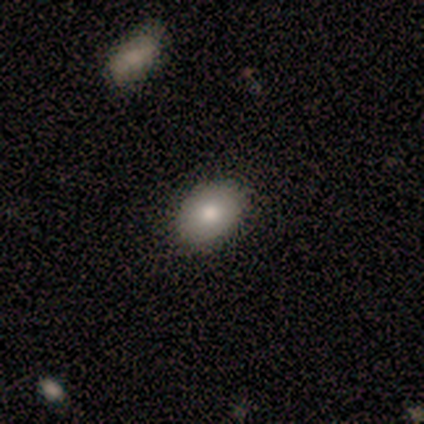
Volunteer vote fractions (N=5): smooth-or-featured: smooth: 80% | featured or disk: 20% | star or artifact: 0%
  how-rounded: in between: 100% | round: 0% | cigar-shaped: 0%
  merging: none: 100% | minor disturbance: 0% | major disturbance: 0% | merger: 0%